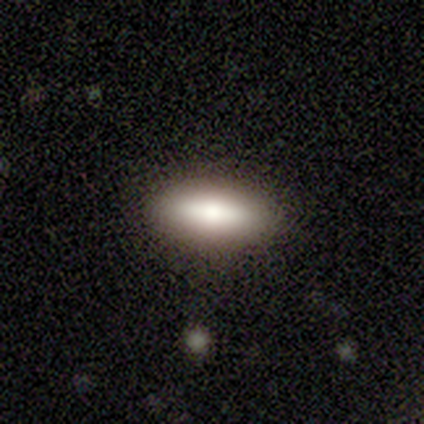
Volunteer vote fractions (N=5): Smooth or featured? 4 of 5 (80%) said smooth. How rounded? 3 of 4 (75%) said in between. Merging? 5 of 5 (100%) said none.